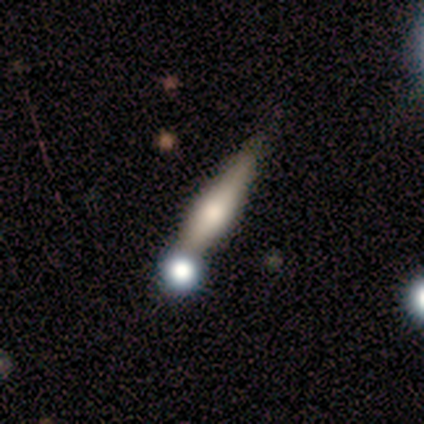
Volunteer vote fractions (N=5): A smooth galaxy with no disk features (60%) that is cigar-shaped (100%). Merging: merger (60%).